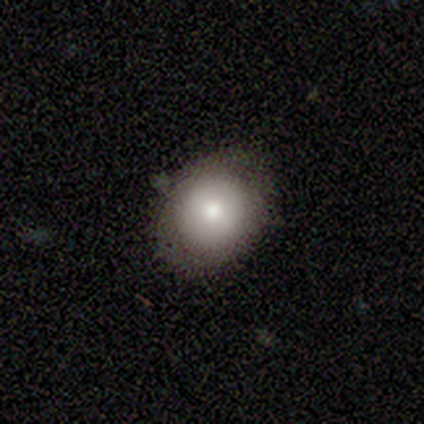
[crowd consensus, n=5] smooth 80%, featured or disk 20%, star or artifact 0%. Down the decision tree: how rounded — round (50%, tied with in between); merging — none (80%).